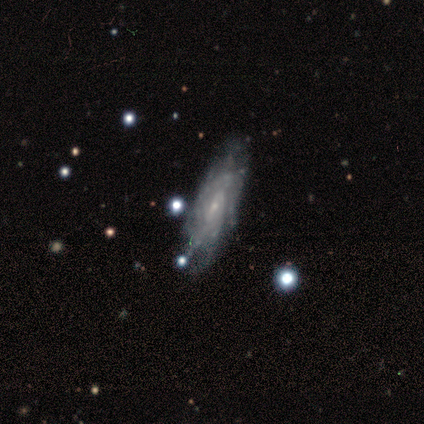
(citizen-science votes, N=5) Q: Smooth or featured?
A: featured or disk (80%); runner-up: star or artifact (20%)
Q: Edge-on disk?
A: no (100%)
Q: Bar?
A: weak (75%); runner-up: strong (25%)
Q: Spiral arms?
A: yes (100%)
Q: Spiral winding?
A: tight (100%)
Q: Spiral arm count?
A: more than 4 (50%); tied with: can't tell (50%)
Q: Bulge size?
A: small (100%)
Q: Merging?
A: none (50%); tied with: minor disturbance (50%)